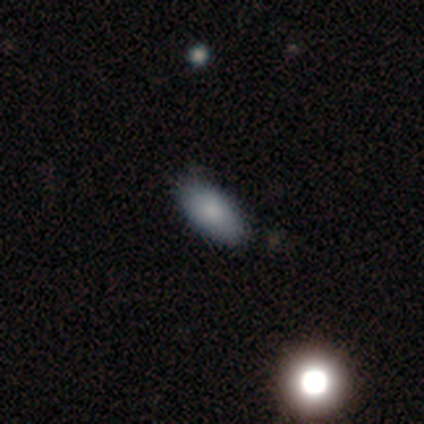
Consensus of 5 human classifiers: smooth-or-featured: smooth: 80% | star or artifact: 20% | featured or disk: 0%
  how-rounded: in between: 100% | round: 0% | cigar-shaped: 0%
  merging: none: 75% | minor disturbance: 25% | major disturbance: 0% | merger: 0%